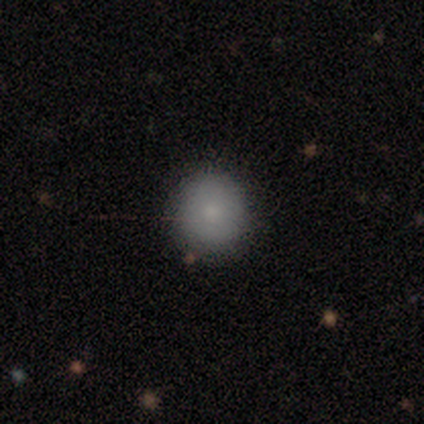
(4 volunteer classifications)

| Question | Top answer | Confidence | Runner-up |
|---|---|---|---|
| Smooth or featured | smooth | 100% | — |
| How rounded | round | 100% | — |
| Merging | none | 100% | — |